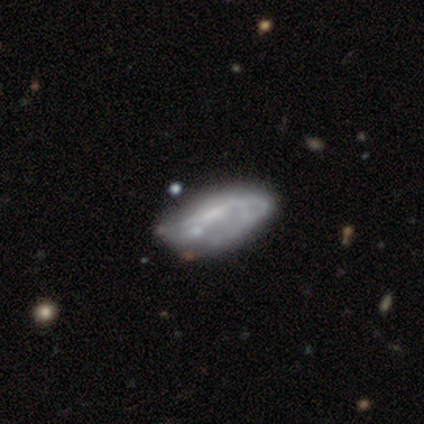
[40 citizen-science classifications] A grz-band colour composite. It shows a featured or disk galaxy (75%) with no bar (64%), no spiral arms (68%) and no central bulge (57%). Merging: none (34%, tied with minor disturbance).